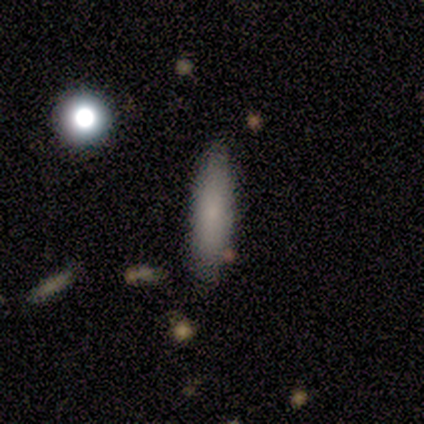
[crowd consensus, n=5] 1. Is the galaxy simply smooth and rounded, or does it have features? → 100% smooth, 0% featured or disk, 0% star or artifact.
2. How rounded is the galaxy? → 80% cigar-shaped, 20% in between, 0% round.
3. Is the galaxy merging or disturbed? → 60% none, 40% minor disturbance, 0% major disturbance, 0% merger.